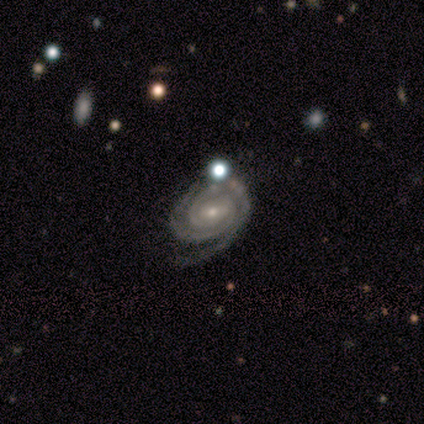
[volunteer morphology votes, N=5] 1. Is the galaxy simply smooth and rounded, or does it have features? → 100% featured or disk, 0% smooth, 0% star or artifact.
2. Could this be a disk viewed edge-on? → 100% no, 0% yes.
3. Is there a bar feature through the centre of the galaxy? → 80% weak, 20% no, 0% strong.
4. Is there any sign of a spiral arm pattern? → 100% yes, 0% no.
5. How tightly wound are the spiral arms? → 100% tight, 0% medium, 0% loose.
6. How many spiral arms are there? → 80% 2, 20% can't tell, 0% 1, 0% 3, 0% 4, 0% more than 4.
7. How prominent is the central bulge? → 60% small, 40% moderate, 0% dominant, 0% large, 0% none.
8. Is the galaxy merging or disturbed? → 100% none, 0% minor disturbance, 0% major disturbance, 0% merger.